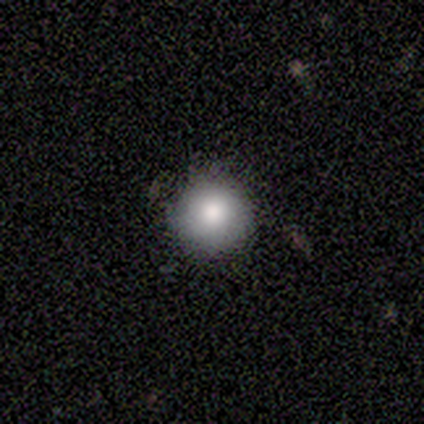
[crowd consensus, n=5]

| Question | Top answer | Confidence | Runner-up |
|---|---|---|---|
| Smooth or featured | smooth | 80% | star or artifact (20%) |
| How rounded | round | 100% | — |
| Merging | none | 75% | minor disturbance (25%) |